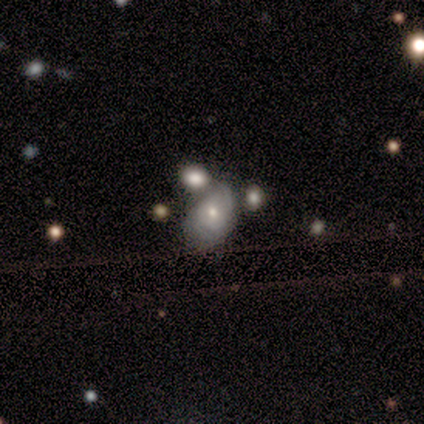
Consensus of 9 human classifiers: A featured or disk galaxy (56%) with no bar (80%), no spiral arms (60%) and a moderate central bulge (80%). Merging: merger (56%).